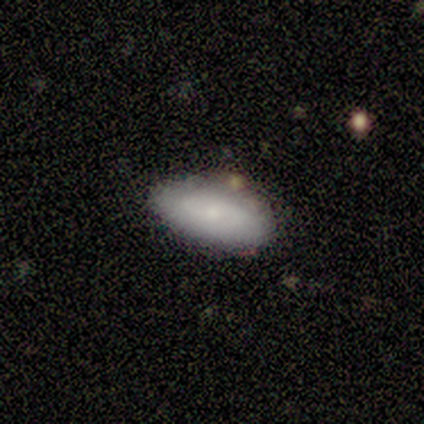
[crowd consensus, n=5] A smooth galaxy with no disk features (60%) that is in between round and cigar-shaped (67%). Merging: none (100%).